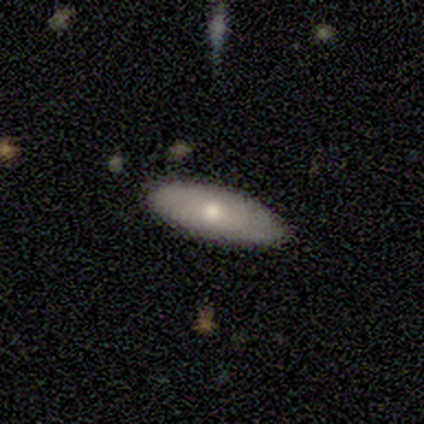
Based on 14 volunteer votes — Smooth or featured?
  - smooth: 57% *
  - featured or disk: 43%
  - star or artifact: 0%
How rounded?
  - in between: 62% *
  - cigar-shaped: 38%
  - round: 0%
Merging?
  - none: 79% *
  - minor disturbance: 14%
  - major disturbance: 7%
  - merger: 0%